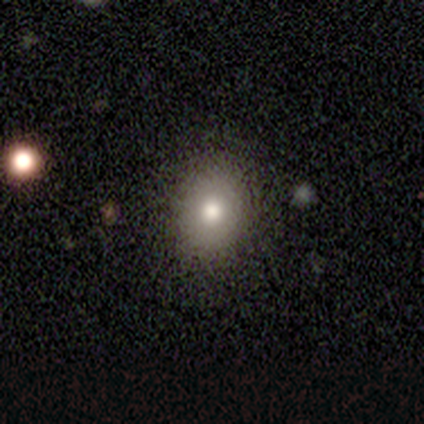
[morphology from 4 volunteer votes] A smooth galaxy with no disk features (75%) that is in between round and cigar-shaped (67%). Merging: none (100%).